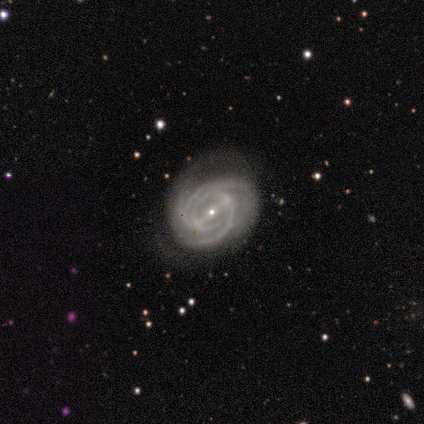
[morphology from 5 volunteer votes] featured or disk 100%, smooth 0%, star or artifact 0%. Down the decision tree: edge-on disk — no (100%); bar — strong (80%); spiral arms — yes (100%); spiral arm count — 3 (60%); spiral winding — tight (80%); bulge size — small (100%); merging — none (100%).